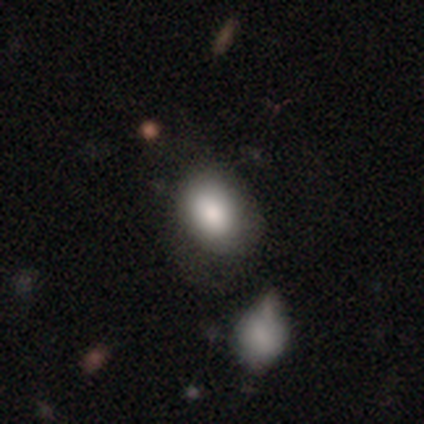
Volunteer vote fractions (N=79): smooth-or-featured: smooth: 85% | featured or disk: 9% | star or artifact: 6%
  how-rounded: in between: 81% | round: 19% | cigar-shaped: 0%
  merging: none: 26% | merger: 20% | minor disturbance: 16% | major disturbance: 3%